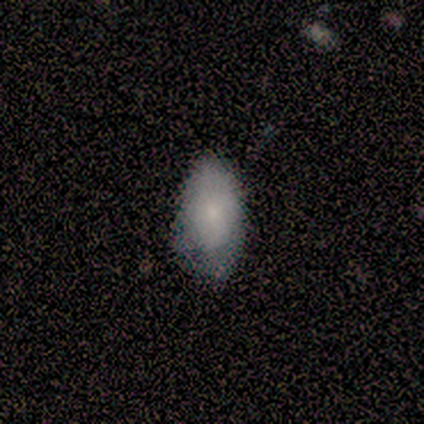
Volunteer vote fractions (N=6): Smooth or featured? smooth (83%)
How rounded? in between (100%)
Merging? none (67%)